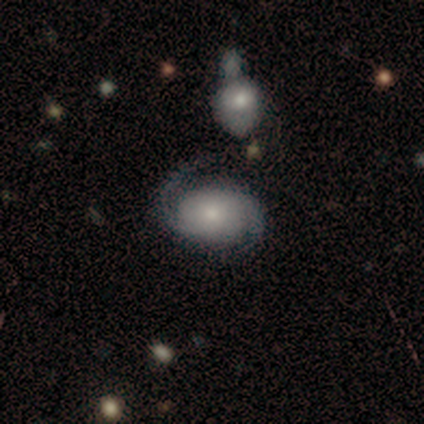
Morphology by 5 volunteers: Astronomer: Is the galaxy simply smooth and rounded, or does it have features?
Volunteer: featured or disk — 60% (runner-up: smooth, 40%).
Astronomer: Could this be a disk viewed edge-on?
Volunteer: no — 100%.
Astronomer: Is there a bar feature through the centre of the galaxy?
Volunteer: weak — 67%.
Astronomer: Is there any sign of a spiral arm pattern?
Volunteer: yes — 100%.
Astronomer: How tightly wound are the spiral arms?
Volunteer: loose — 67%.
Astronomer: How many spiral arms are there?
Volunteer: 2 — 100%.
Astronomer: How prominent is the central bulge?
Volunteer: small — 67%.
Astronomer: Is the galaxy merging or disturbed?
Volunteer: none — 60% (runner-up: minor disturbance, 40%).